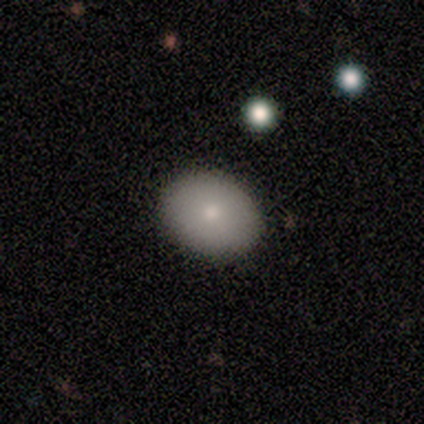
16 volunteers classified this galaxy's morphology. smooth_or_featured: smooth (p=0.75) [alt: featured or disk p=0.19]
how_rounded: round (p=0.50) [tied with: in between p=0.50]
merging: none (p=0.80) [alt: minor disturbance p=0.20]